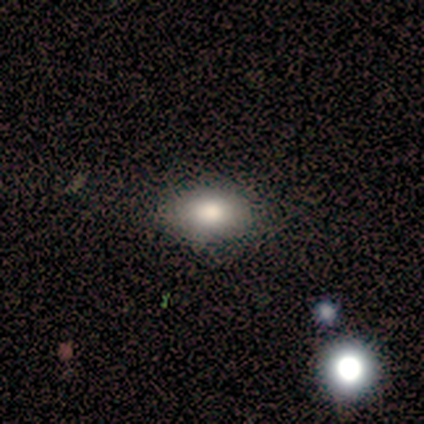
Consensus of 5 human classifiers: Morphology: type=smooth (80%); roundness=in between (75%); merging=none (100%).